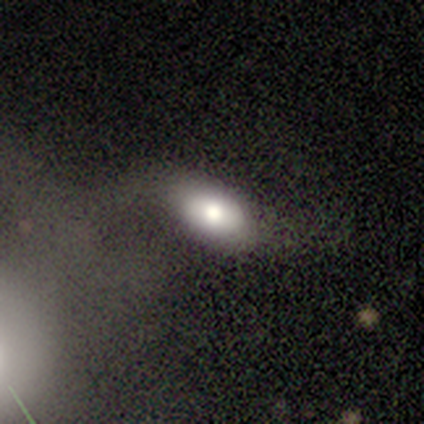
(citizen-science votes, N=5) Overall: smooth (60%; featured or disk 40%). How rounded: in between (67%; round 33%). Merging: minor disturbance (40%; none 20%).